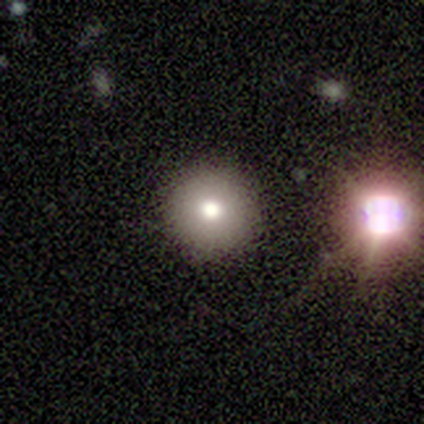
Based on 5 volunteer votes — Morphology: type=smooth (80%); roundness=round (100%); merging=none (100%).